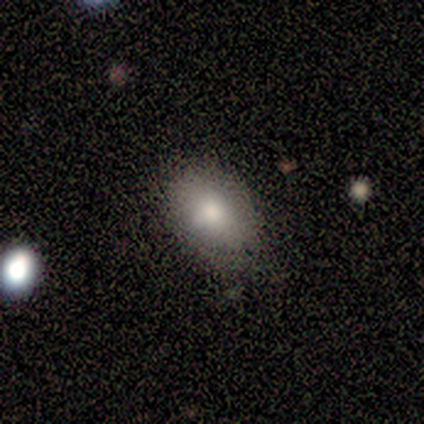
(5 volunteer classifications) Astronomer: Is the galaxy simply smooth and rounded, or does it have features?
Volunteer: smooth — 60%.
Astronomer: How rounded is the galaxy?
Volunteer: in between — 100%.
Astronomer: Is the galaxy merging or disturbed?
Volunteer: none — 75%.